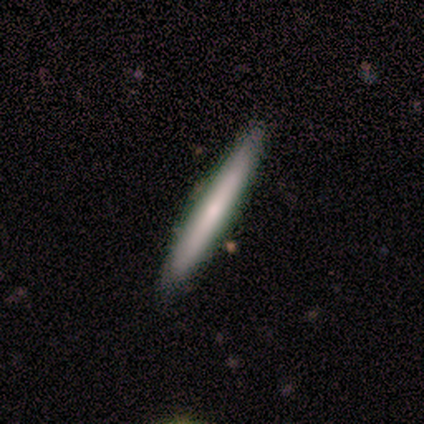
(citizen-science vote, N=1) smooth_or_featured: smooth (p=1.00)
how_rounded: cigar-shaped (p=1.00)
merging: none (p=1.00)